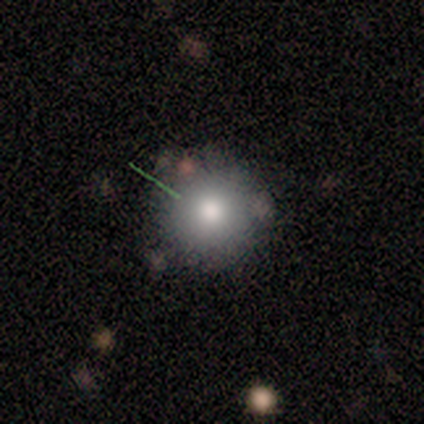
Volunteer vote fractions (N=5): A smooth galaxy with no disk features (80%) that is round (100%). Merging: none (100%).